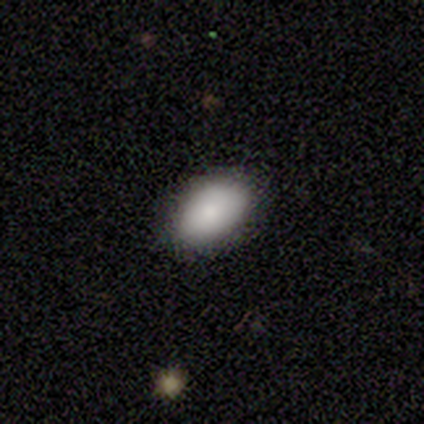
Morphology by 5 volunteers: Smooth or featured: smooth — 100%
How rounded: in between — 100%
Merging: none — 80% (minor disturbance — 20%)